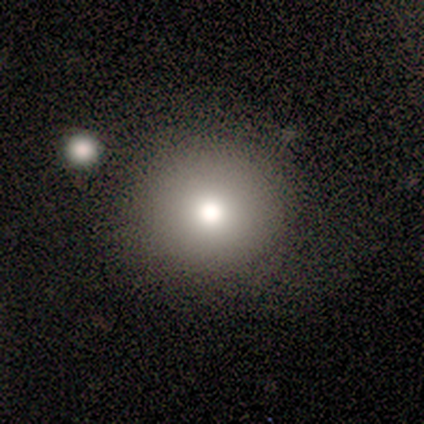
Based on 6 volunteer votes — Overall: smooth (83%). How rounded: round (100%). Merging: none (67%; minor disturbance 33%).